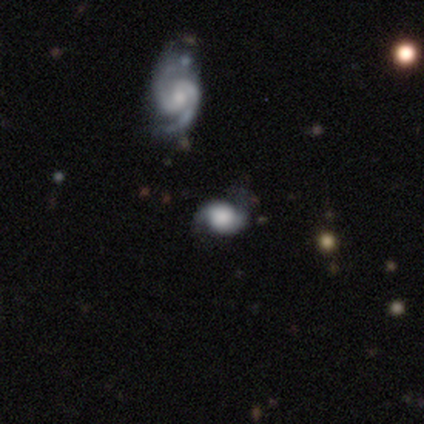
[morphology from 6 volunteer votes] Q: Smooth or featured?
A: featured or disk (67%); runner-up: smooth (33%)
Q: Edge-on disk?
A: no (100%)
Q: Bar?
A: no (75%); runner-up: weak (25%)
Q: Spiral arms?
A: yes (100%)
Q: Spiral winding?
A: loose (75%); runner-up: tight (25%)
Q: Spiral arm count?
A: 2 (100%)
Q: Bulge size?
A: large (50%); runner-up: dominant (25%)
Q: Merging?
A: none (67%); runner-up: minor disturbance (17%)